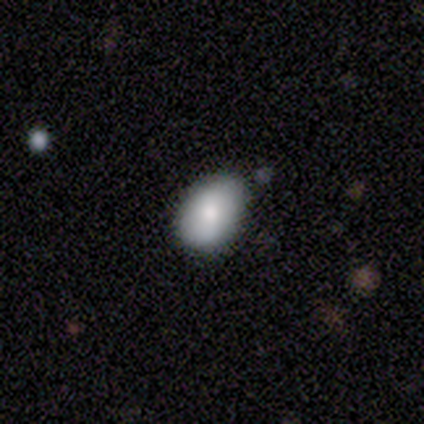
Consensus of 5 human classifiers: Volunteers were most divided on "smooth or featured" (2-way tie): smooth: 40%, featured or disk: 40%, star or artifact: 20%. More confident: how rounded — in between (100%); merging — none (100%).